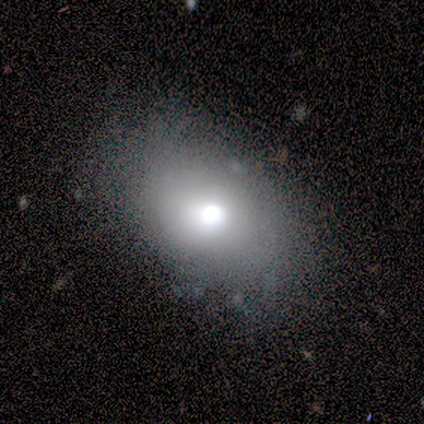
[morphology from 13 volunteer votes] smooth-or-featured: smooth: 62% | featured or disk: 31% | star or artifact: 8%
  how-rounded: in between: 88% | round: 12% | cigar-shaped: 0%
  merging: minor disturbance: 58% | none: 42% | major disturbance: 0% | merger: 0%